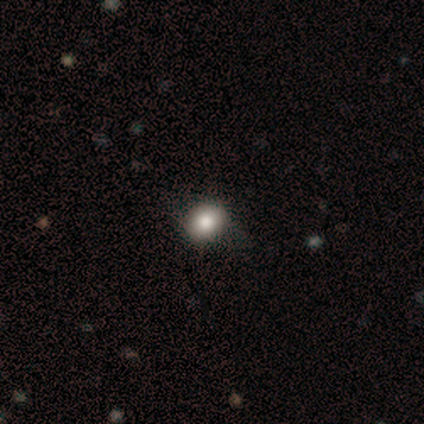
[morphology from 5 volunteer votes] This appears to be a smooth galaxy with no disk features (80%) that is round (75%). Merging: none (75%).